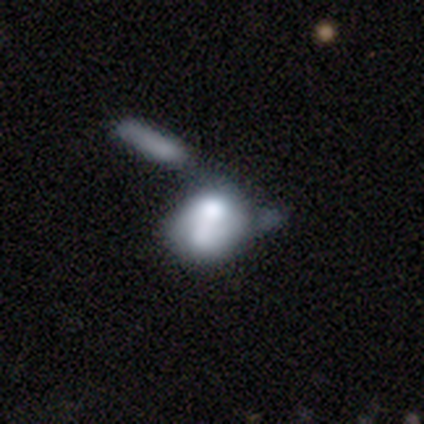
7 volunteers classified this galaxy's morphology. Smooth or featured? 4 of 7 (57%) said smooth. How rounded? 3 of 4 (75%) said in between. Merging? 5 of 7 (71%) said merger.